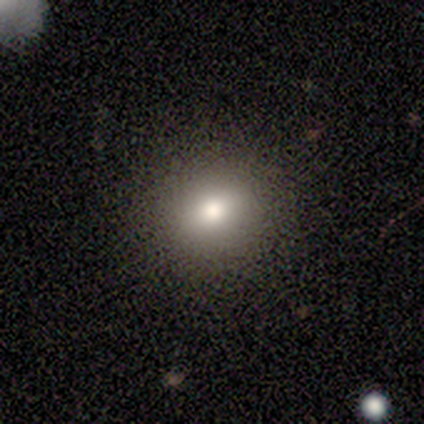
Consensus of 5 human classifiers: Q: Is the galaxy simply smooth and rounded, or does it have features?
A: smooth — 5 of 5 (100%).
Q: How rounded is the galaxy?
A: in between — 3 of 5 (60%).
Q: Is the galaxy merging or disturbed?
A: none — 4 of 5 (80%).